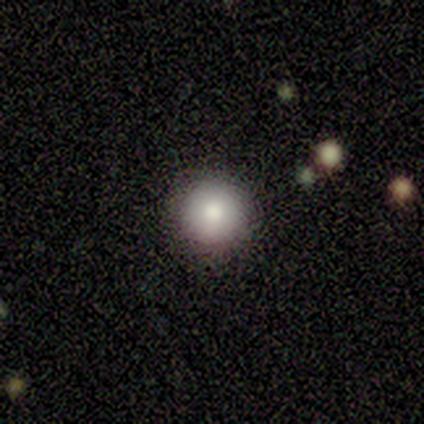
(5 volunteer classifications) Smooth or featured? smooth (80%)
How rounded? round (100%)
Merging? none (60%)